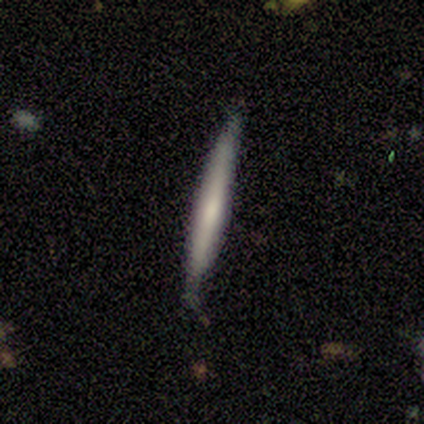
smooth_or_featured: smooth (p=0.75) [alt: featured or disk p=0.25]
how_rounded: cigar-shaped (p=1.00)
merging: none (p=0.75) [alt: minor disturbance p=0.25]